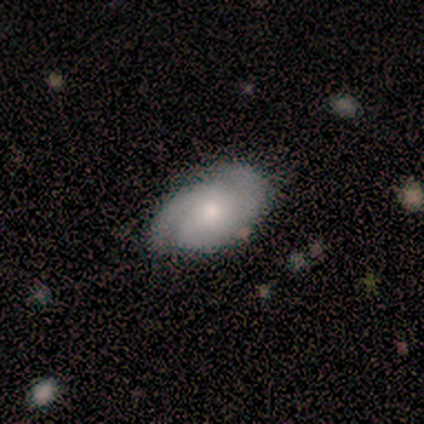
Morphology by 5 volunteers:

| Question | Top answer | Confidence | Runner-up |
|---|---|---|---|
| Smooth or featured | featured or disk | 60% | smooth (40%) |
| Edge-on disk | no | 100% | — |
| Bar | no | 67% | strong (33%) |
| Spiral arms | yes | 100% | — |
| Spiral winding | tight | 33% | tied: medium (33%), loose (33%) |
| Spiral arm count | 2 | 67% | 3 (33%) |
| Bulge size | moderate | 100% | — |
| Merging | none | 60% | minor disturbance (20%) |